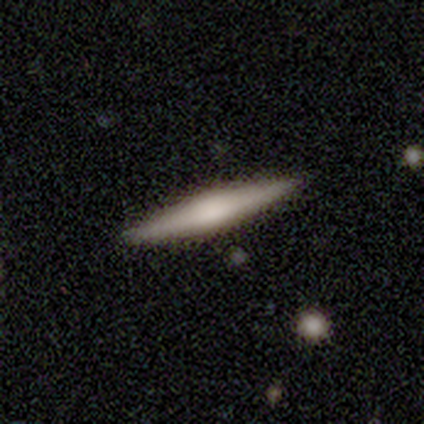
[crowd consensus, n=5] smooth 60%, featured or disk 40%, star or artifact 0%. Down the decision tree: how rounded — cigar-shaped (100%); merging — none (100%).